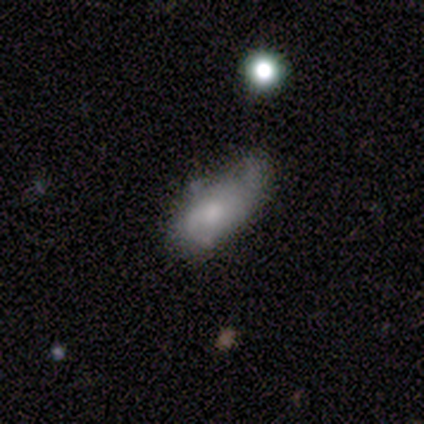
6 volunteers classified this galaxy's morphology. A smooth galaxy with no disk features (50%, tied with featured or disk) that is in between round and cigar-shaped (100%).

Vote fractions:
- Smooth or featured? smooth: 50% (tied) / featured or disk: 50% (tied) / star or artifact: 0%
- How rounded? in between: 100% / round: 0% / cigar-shaped: 0%
- Merging? none: 50% / major disturbance: 33% / minor disturbance: 17% / merger: 0%